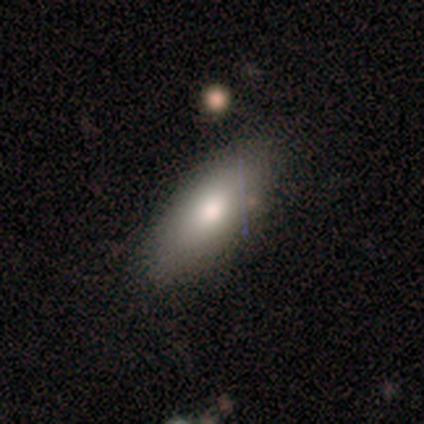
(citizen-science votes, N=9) Smooth or featured?
  - smooth: 100% *
  - featured or disk: 0%
  - star or artifact: 0%
How rounded?
  - in between: 78% *
  - cigar-shaped: 22%
  - round: 0%
Merging?
  - none: 78% *
  - minor disturbance: 22%
  - major disturbance: 0%
  - merger: 0%